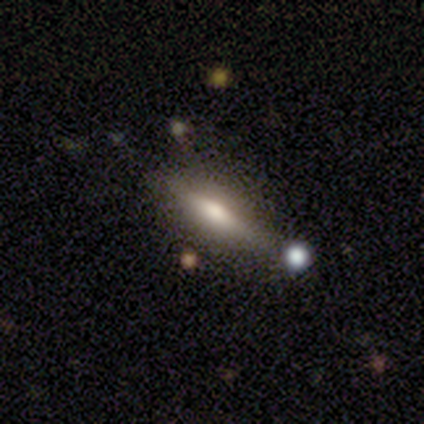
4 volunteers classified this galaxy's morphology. Smooth or featured? 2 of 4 (50%, tied with featured or disk) said smooth. How rounded? 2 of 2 (100%) said in between. Merging? 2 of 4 (50%, tied with minor disturbance) said none.